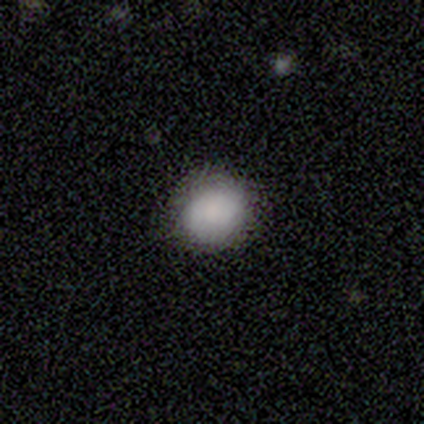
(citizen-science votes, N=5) Overall: smooth (100%). How rounded: round (60%; in between 40%). Merging: none (100%).